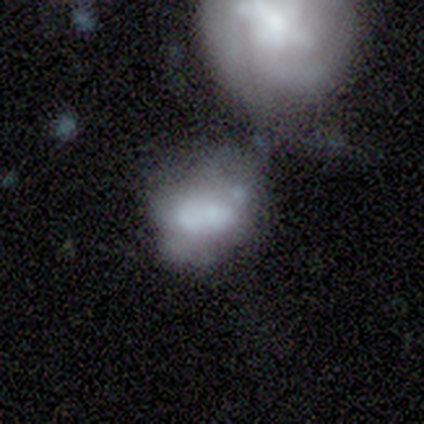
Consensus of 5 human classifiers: Smooth or featured?
  - smooth: 60% *
  - featured or disk: 40%
  - star or artifact: 0%
How rounded?
  - in between: 67% *
  - cigar-shaped: 33%
  - round: 0%
Merging?
  - minor disturbance: 60% *
  - major disturbance: 20%
  - merger: 20%
  - none: 0%